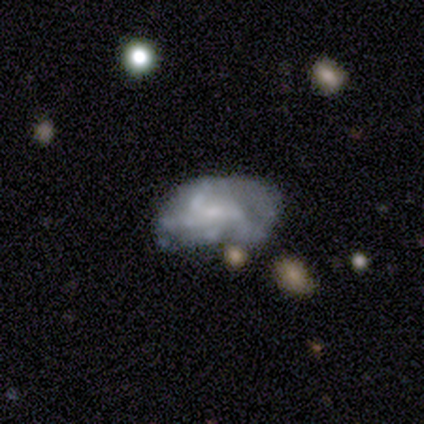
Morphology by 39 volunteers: This is possibly a featured or disk galaxy (59%). It is clearly not viewed edge-on (96%). Bar: likely no (77%). Spiral arm pattern: likely no (68%). Central bulge: possibly small (59%). Merging: marginally none (39%).